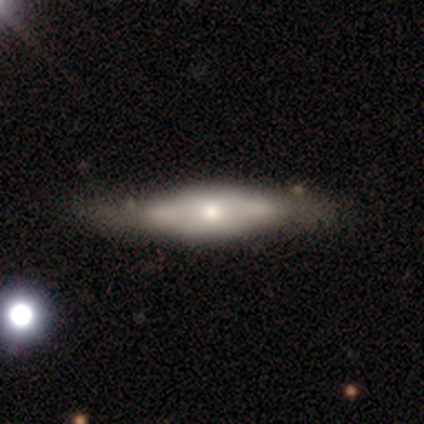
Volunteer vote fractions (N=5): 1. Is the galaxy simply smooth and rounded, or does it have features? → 100% featured or disk, 0% smooth, 0% star or artifact.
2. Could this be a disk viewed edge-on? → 60% yes, 40% no.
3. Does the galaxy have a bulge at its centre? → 100% rounded, 0% boxy, 0% none.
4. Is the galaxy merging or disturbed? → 60% none, 20% major disturbance, 20% merger, 0% minor disturbance.